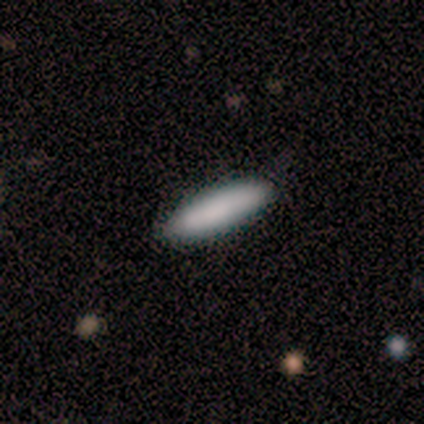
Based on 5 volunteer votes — Smooth or featured?
  - smooth: 100% *
  - featured or disk: 0%
  - star or artifact: 0%
How rounded?
  - in between: 60% *
  - cigar-shaped: 40%
  - round: 0%
Merging?
  - none: 60% *
  - minor disturbance: 40%
  - major disturbance: 0%
  - merger: 0%